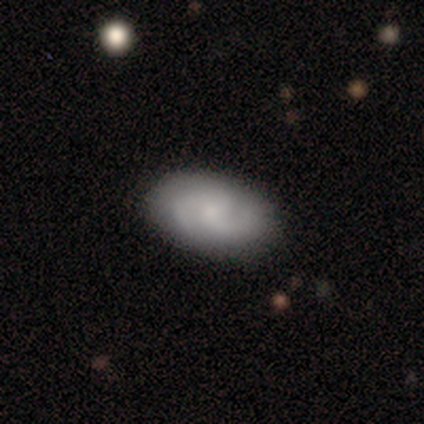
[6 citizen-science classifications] Overall: featured or disk (83%). Edge-on disk: no (100%). Bar: no (60%; weak 40%). Spiral arms: yes (80%). Spiral arm count: 3 (75%). Spiral winding: medium (75%). Bulge size: small (80%). Merging: none (100%).